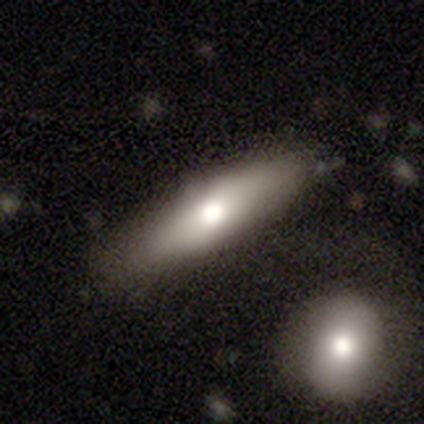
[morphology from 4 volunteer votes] smooth_or_featured: smooth (p=0.50) [alt: featured or disk p=0.25]
how_rounded: in between (p=0.50) [tied with: cigar-shaped p=0.50]
merging: none (p=0.67) [alt: minor disturbance p=0.33]